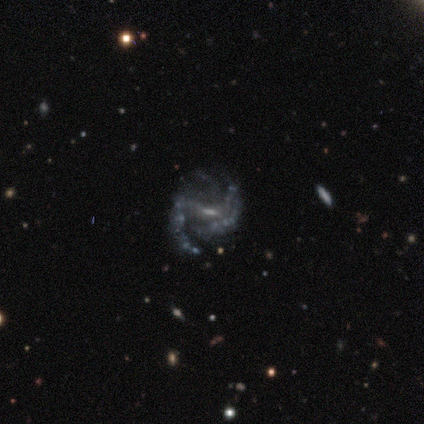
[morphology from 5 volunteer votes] Smooth or featured? featured or disk (100%)
Edge-on disk? no (100%)
Bar? weak (60%)
Spiral arms? yes (100%)
Spiral winding? medium (60%)
Spiral arm count? 1 (20%, tied with 2, 3, 4 and can't tell)
Bulge size? moderate (40%, tied with none)
Merging? none (60%)